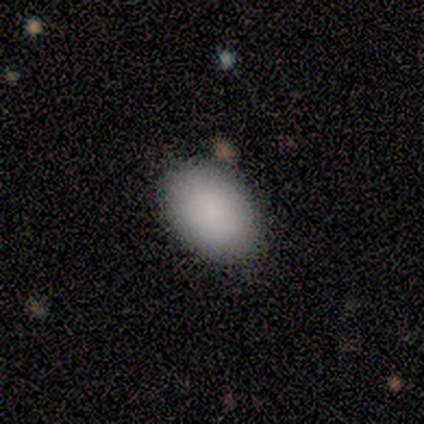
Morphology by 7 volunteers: Volunteers were most divided on "smooth or featured": smooth: 71%, featured or disk: 14%, star or artifact: 14%. More confident: how rounded — in between (100%); merging — none (100%).